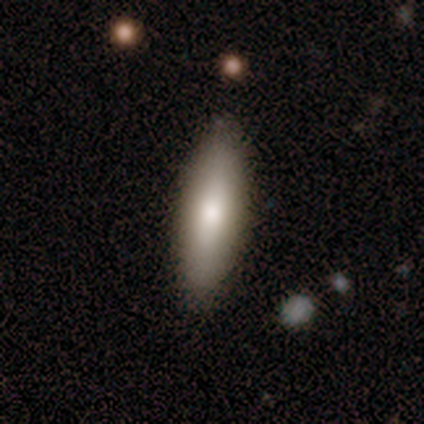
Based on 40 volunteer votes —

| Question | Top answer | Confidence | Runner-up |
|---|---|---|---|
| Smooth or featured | smooth | 72% | featured or disk (18%) |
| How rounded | in between | 55% | cigar-shaped (45%) |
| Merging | none | 86% | minor disturbance (14%) |